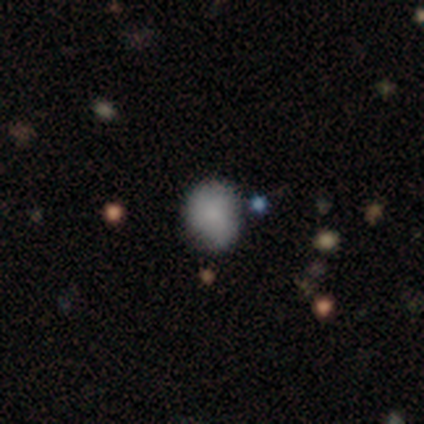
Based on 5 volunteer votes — Smooth or featured? smooth (60%)
How rounded? in between (67%)
Merging? none (60%)